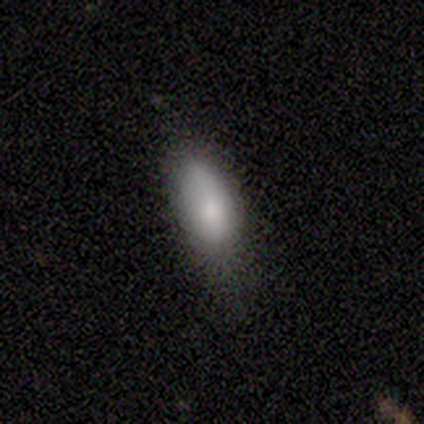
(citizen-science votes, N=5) smooth 80%, featured or disk 20%, star or artifact 0%. Down the decision tree: how rounded — in between (100%); merging — minor disturbance (60%).